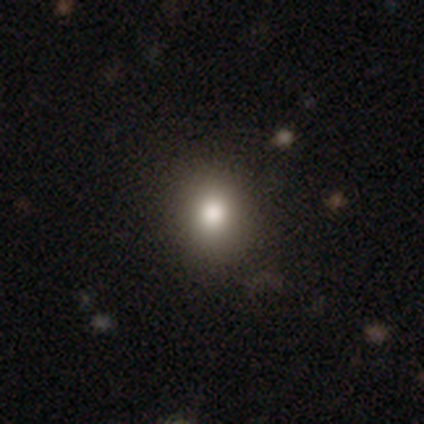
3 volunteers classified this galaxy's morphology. Smooth or featured: smooth — 100%
How rounded: round — 67% (in between — 33%)
Merging: none — 100%